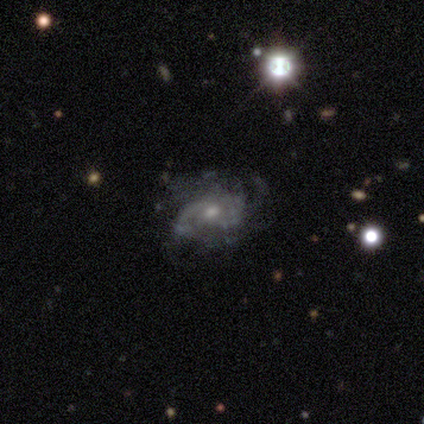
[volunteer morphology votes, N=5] This is clearly a featured or disk galaxy (100%). It is clearly not viewed edge-on (100%). Bar: likely no (60%). Spiral arm pattern: clearly yes (80%). Spiral arm count: possibly 2 (50%). Spiral winding: possibly tight (50%). Central bulge: clearly small (80%). Merging: likely minor disturbance (60%).